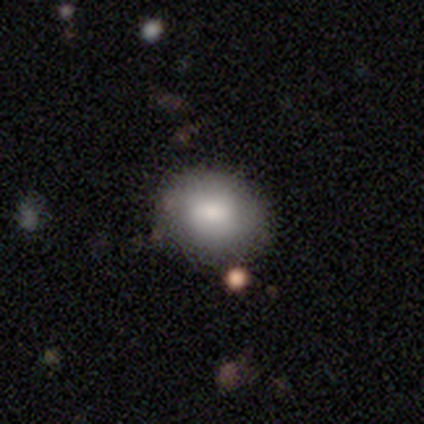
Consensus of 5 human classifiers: This appears to be a smooth galaxy with no disk features (60%) that is round (67%). Merging: none (75%).